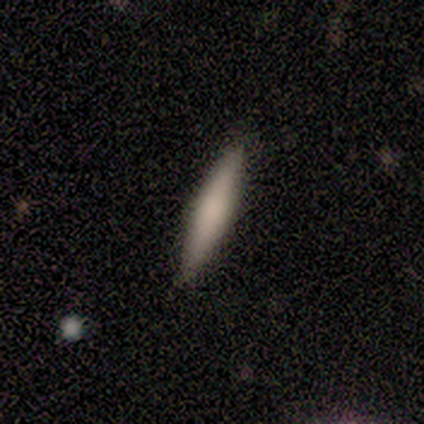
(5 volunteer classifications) This appears to be a featured or disk galaxy (80%) viewed edge-on (100%) with a rounded central bulge (75%). Merging: none (80%).